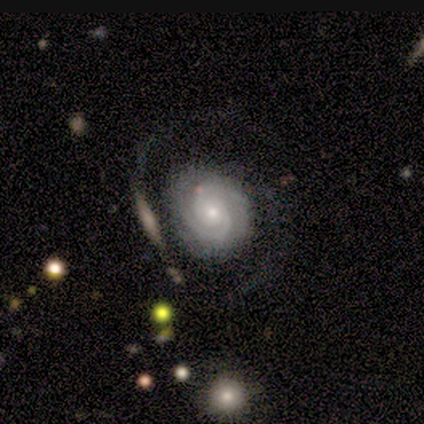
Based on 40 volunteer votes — Volunteers were most divided on "merging": none: 51%, minor disturbance: 20%, major disturbance: 20%, merger: 9%. More confident: edge-on disk — no (97%); spiral arms — yes (97%); smooth or featured — featured or disk (82%); spiral winding — tight (81%); bar — no (78%); spiral arm count — 2 (77%); bulge size — small (66%).